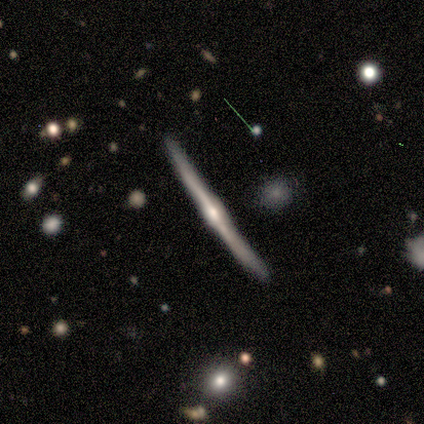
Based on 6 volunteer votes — This is clearly a featured or disk galaxy (100%). It is clearly viewed edge-on (100%). Edge-on bulge: likely rounded (67%). Merging: likely none (67%).